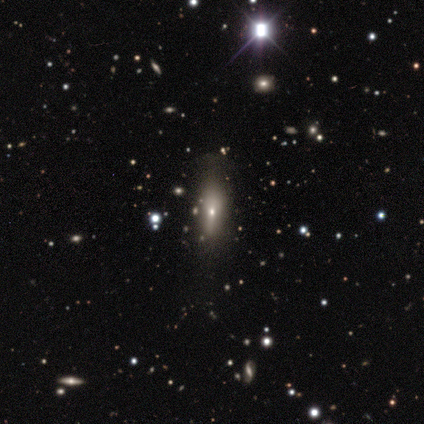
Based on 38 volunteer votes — A smooth galaxy with no disk features (74%) that is in between round and cigar-shaped (57%).

Vote fractions:
- Smooth or featured? smooth: 74% / featured or disk: 21% / star or artifact: 5%
- How rounded? in between: 57% / cigar-shaped: 43% / round: 0%
- Merging? none: 42% / minor disturbance: 19% / major disturbance: 8% / merger: 0%